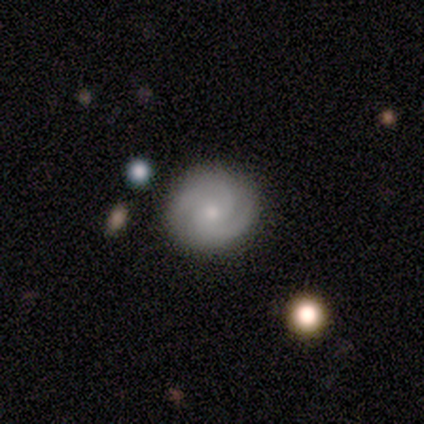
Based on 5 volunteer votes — A featured or disk galaxy (80%) with no bar (67%), 2 (33%, tied with 3 and can't tell) tight (67%) spiral arms (100%) and a small central bulge (67%).

Vote fractions:
- Smooth or featured? featured or disk: 80% / smooth: 20% / star or artifact: 0%
- Edge-on disk? no: 75% / yes: 25%
- Bar? no: 67% / strong: 33% / weak: 0%
- Spiral arms? yes: 100% / no: 0%
- Spiral winding? tight: 67% / medium: 33% / loose: 0%
- Spiral arm count? 2: 33% (tied) / 3: 33% (tied) / can't tell: 33% (tied) / 1: 0% / 4: 0% / more than 4: 0%
- Bulge size? small: 67% / moderate: 33% / dominant: 0% / large: 0% / none: 0%
- Merging? none: 80% / minor disturbance: 20% / major disturbance: 0% / merger: 0%